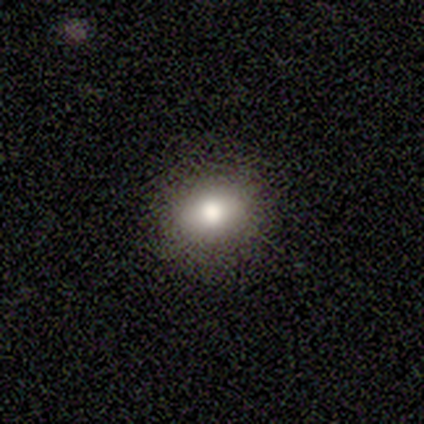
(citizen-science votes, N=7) Q: Smooth or featured?
A: smooth (100%)
Q: How rounded?
A: in between (57%); runner-up: round (43%)
Q: Merging?
A: none (100%)